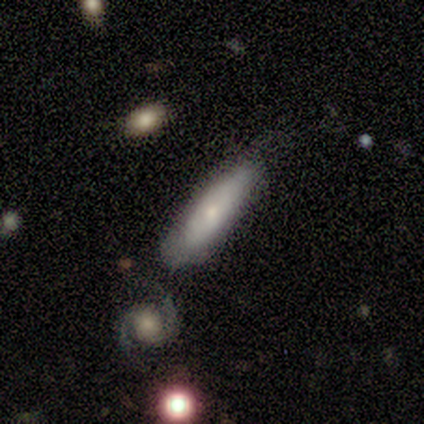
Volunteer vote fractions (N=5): smooth-or-featured: smooth: 60% | featured or disk: 40% | star or artifact: 0%
  how-rounded: cigar-shaped: 100% | round: 0% | in between: 0%
  merging: none: 60% | minor disturbance: 40% | major disturbance: 0% | merger: 0%